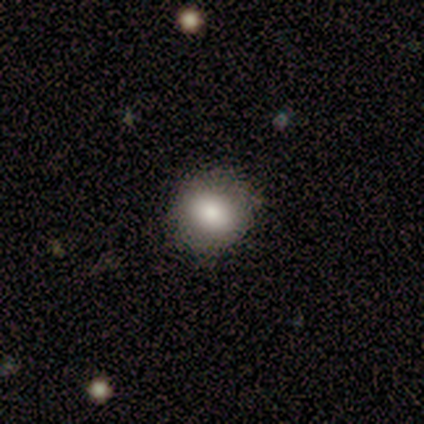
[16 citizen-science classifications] Morphology: type=smooth (56%); roundness=round (89%); merging=none (71%).